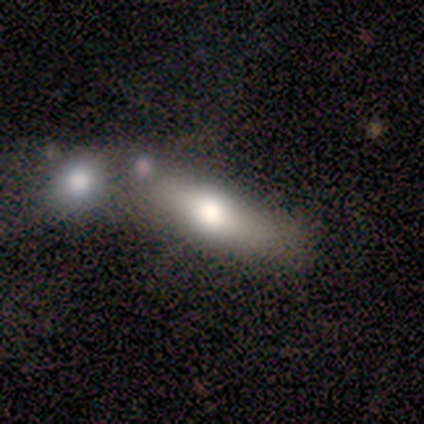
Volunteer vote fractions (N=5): Smooth or featured?
  - smooth: 40% * (tied)
  - featured or disk: 40% * (tied)
  - star or artifact: 20%
How rounded?
  - in between: 50% * (tied)
  - cigar-shaped: 50% * (tied)
  - round: 0%
Merging?
  - none: 50% *
  - minor disturbance: 25%
  - major disturbance: 25%
  - merger: 0%